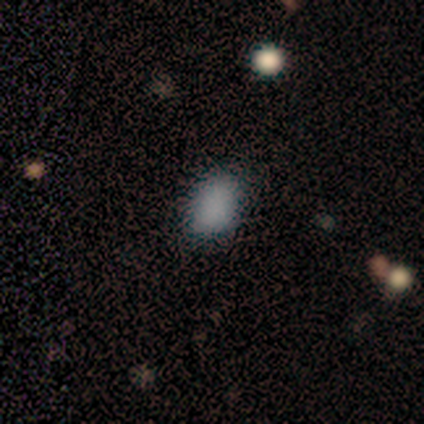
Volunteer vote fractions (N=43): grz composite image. It shows a smooth galaxy with no disk features (84%) that is in between round and cigar-shaped (75%). Merging: none (76%).